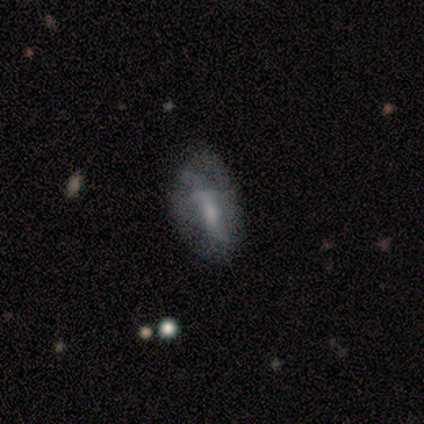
This appears to be a featured or disk galaxy (65%) with a weak bar (54%), 2 (42%, tied with can't tell) loose (50%) spiral arms (50%, tied with no) and a small central bulge (58%). Merging: none (72%).